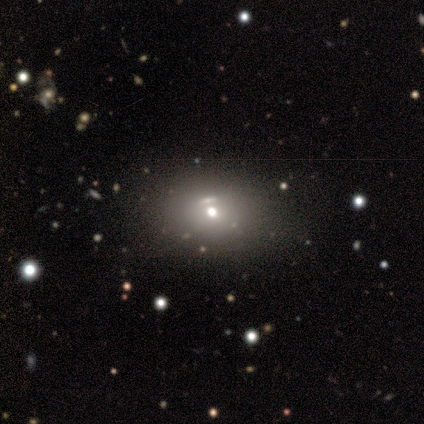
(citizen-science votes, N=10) Smooth or featured? smooth (60%)
How rounded? in between (67%)
Merging? none (100%)